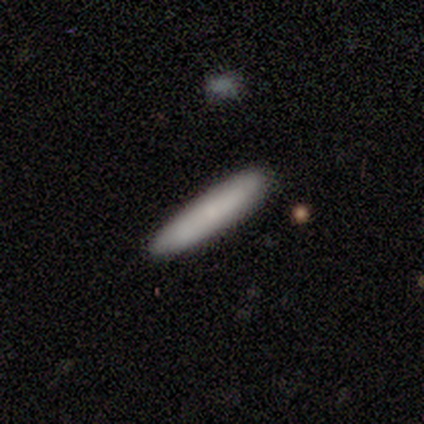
This is likely a smooth galaxy (73%). How rounded: clearly cigar-shaped (100%). Merging: clearly none (100%).